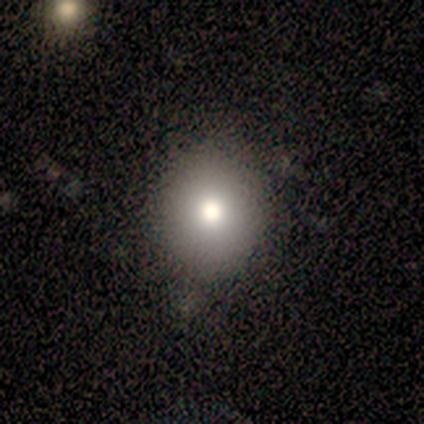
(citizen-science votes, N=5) Volunteers were most divided on "how rounded": round: 80%, in between: 20%, cigar-shaped: 0%. More confident: smooth or featured — smooth (100%); merging — none (80%).